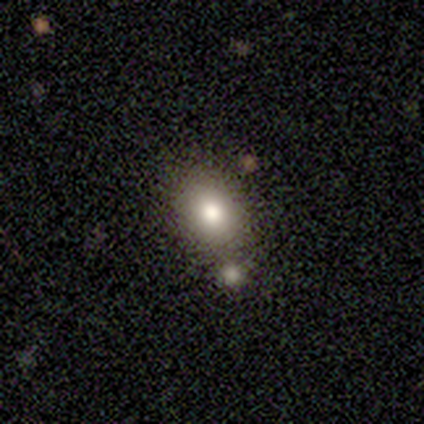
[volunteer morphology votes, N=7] Smooth or featured? 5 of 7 (71%) said smooth. How rounded? 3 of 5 (60%) said in between. Merging? 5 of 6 (83%) said none.